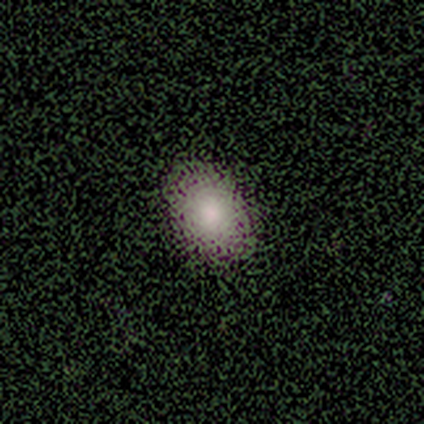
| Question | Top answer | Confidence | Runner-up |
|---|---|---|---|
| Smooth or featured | smooth | 100% | — |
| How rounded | in between | 100% | — |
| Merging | none | 100% | — |